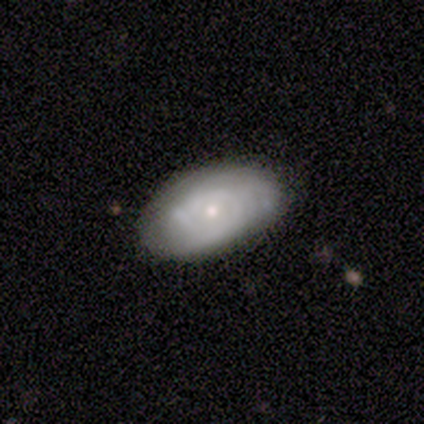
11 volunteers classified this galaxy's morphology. Smooth or featured: smooth — 45% (featured or disk — 36%)
How rounded: in between — 100%
Merging: none — 78% (minor disturbance — 11%)